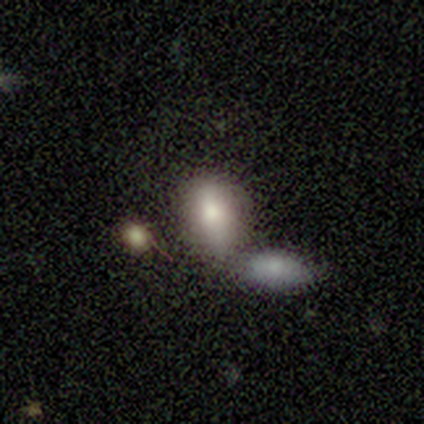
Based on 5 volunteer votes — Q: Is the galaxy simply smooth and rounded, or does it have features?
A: smooth — 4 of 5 (80%).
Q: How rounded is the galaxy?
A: in between — 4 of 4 (100%).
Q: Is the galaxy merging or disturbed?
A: none — 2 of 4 (50%, tied with merger).